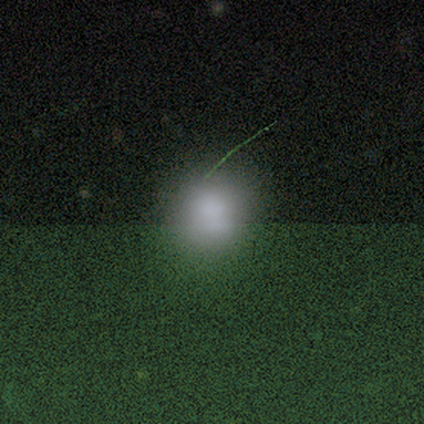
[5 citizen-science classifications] smooth 100%, featured or disk 0%, star or artifact 0%. Down the decision tree: how rounded — in between (60%); merging — none (80%).